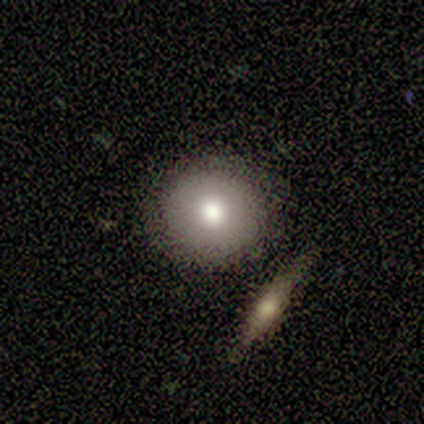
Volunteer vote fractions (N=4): Overall: smooth (100%). How rounded: round (100%). Merging: none (100%).